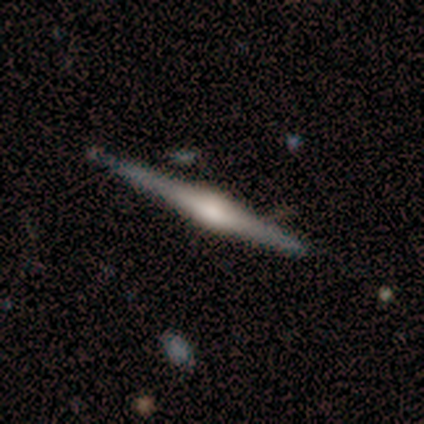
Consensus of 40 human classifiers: Volunteers were most divided on "edge-on bulge": rounded: 69%, boxy: 24%, none: 7%. More confident: edge-on disk — yes (97%); merging — none (81%); smooth or featured — featured or disk (75%).